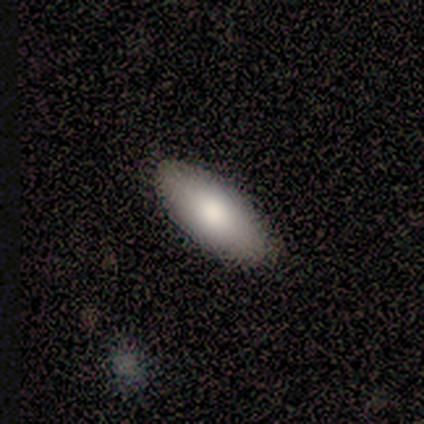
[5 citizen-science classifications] Overall: smooth (60%; featured or disk 40%). How rounded: in between (100%). Merging: none (100%).